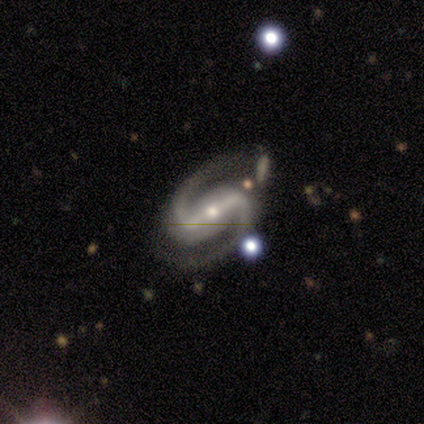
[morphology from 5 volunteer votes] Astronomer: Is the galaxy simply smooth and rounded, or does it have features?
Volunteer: featured or disk — 100%.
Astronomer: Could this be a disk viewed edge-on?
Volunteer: no — 100%.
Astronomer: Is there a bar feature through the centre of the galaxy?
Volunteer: strong — 80%.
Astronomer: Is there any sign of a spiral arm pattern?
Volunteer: yes — 80%.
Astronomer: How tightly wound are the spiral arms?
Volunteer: tight — 75%.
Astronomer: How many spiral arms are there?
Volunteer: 2 — 100%.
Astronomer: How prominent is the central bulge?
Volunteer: small — 60% (runner-up: moderate, 40%).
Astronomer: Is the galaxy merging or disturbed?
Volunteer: none — 80%.